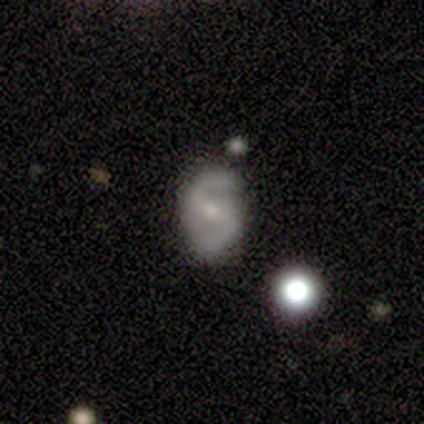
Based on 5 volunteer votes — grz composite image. It shows a featured or disk galaxy (60%) with no bar (67%), 2 (100%) tight (50%, tied with medium) spiral arms (67%) and a moderate central bulge (67%). Merging: none (100%).